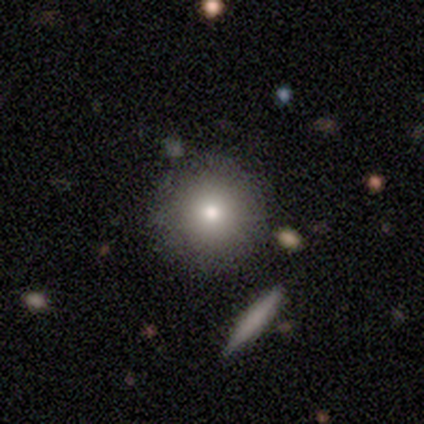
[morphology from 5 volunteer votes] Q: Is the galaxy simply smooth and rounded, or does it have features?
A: smooth — 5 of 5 (100%).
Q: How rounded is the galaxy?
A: round — 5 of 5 (100%).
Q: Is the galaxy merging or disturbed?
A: none — 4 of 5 (80%).